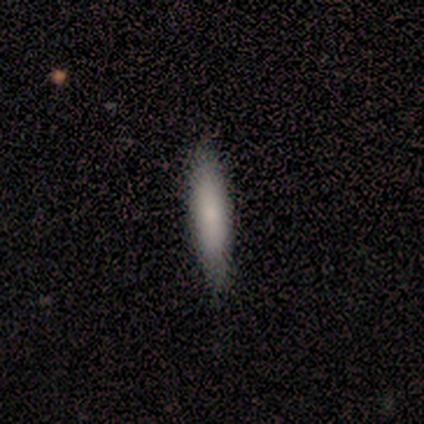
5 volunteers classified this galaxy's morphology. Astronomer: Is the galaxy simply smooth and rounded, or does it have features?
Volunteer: smooth — 80%.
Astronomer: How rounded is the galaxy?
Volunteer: cigar-shaped — 100%.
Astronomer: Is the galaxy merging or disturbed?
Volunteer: none — 75%.